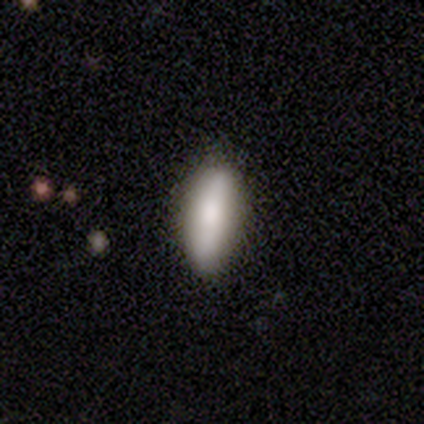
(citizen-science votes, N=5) Volunteers were most divided on "smooth or featured": smooth: 60%, featured or disk: 40%, star or artifact: 0%. More confident: how rounded — in between (100%); merging — none (60%).